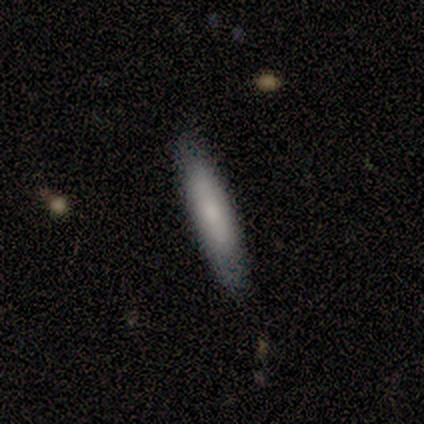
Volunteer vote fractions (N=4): smooth-or-featured: smooth: 75% | star or artifact: 25% | featured or disk: 0%
  how-rounded: cigar-shaped: 100% | round: 0% | in between: 0%
  merging: none: 67% | minor disturbance: 33% | major disturbance: 0% | merger: 0%